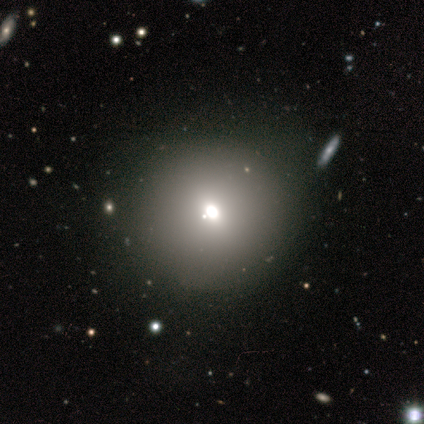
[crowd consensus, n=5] This is likely a smooth galaxy (60%). How rounded: clearly round (100%). Merging: clearly none (100%).